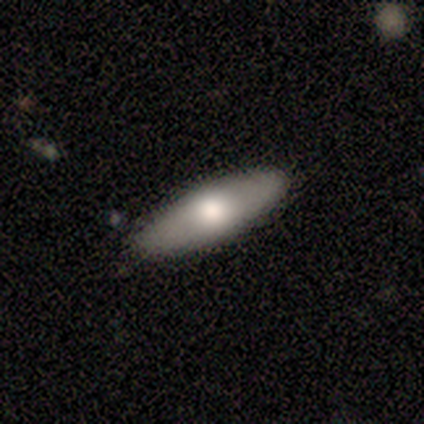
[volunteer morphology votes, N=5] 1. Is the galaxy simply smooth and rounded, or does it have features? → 60% smooth, 40% featured or disk, 0% star or artifact.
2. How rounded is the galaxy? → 67% in between, 33% cigar-shaped, 0% round.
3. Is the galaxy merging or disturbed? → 100% none, 0% minor disturbance, 0% major disturbance, 0% merger.